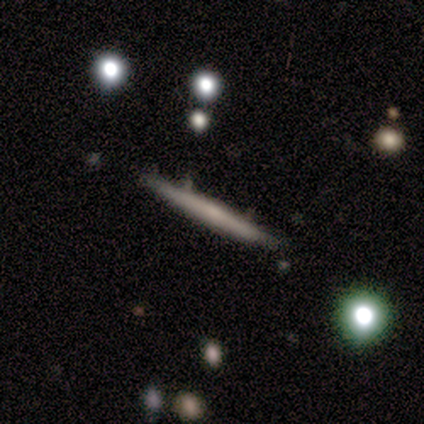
Q: Smooth or featured?
A: featured or disk (60%); runner-up: smooth (20%)
Q: Edge-on disk?
A: yes (100%)
Q: Edge-on bulge?
A: rounded (67%); runner-up: none (33%)
Q: Merging?
A: none (100%)